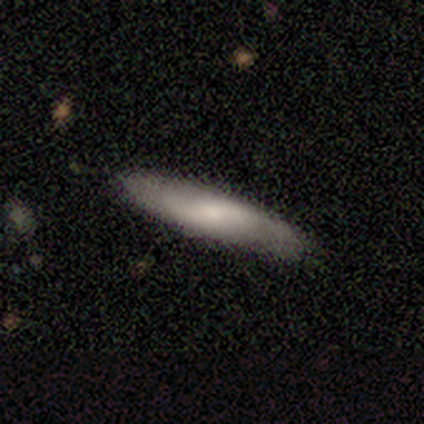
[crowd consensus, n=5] Smooth or featured?
  - smooth: 40% * (tied)
  - featured or disk: 40% * (tied)
  - star or artifact: 20%
How rounded?
  - cigar-shaped: 100% *
  - round: 0%
  - in between: 0%
Merging?
  - none: 100% *
  - minor disturbance: 0%
  - major disturbance: 0%
  - merger: 0%